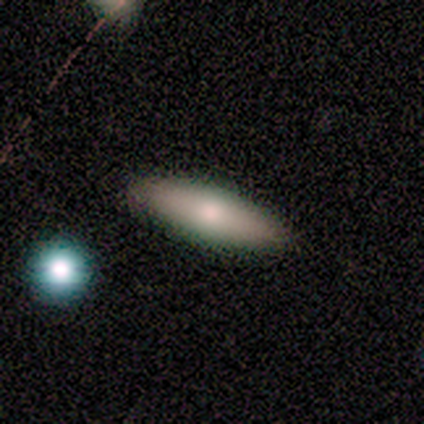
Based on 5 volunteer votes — Volunteers were most divided on "how rounded" (2-way tie): in between: 50%, cigar-shaped: 50%, round: 0%. More confident: merging — none (100%); smooth or featured — smooth (80%).